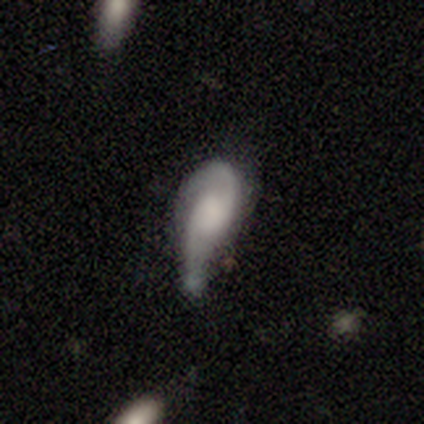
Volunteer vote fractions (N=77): This appears to be a featured or disk galaxy (66%) with no bar (81%), 2 (82%) loose (52%) spiral arms (85%) and no central bulge (40%). Merging: minor disturbance (19%, tied with major disturbance).